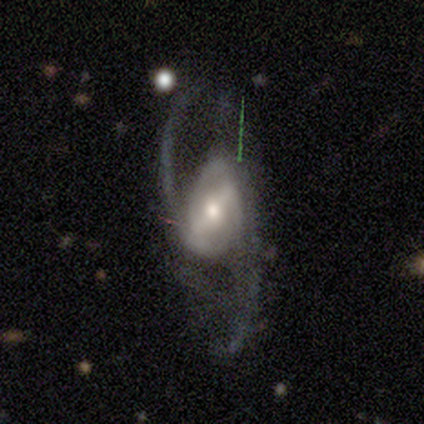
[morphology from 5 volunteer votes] Overall: featured or disk (100%). Edge-on disk: no (100%). Bar: strong (80%). Spiral arms: yes (100%). Spiral arm count: 2 (100%). Spiral winding: loose (80%). Bulge size: moderate (60%; small 40%). Merging: none (60%; minor disturbance 40%).